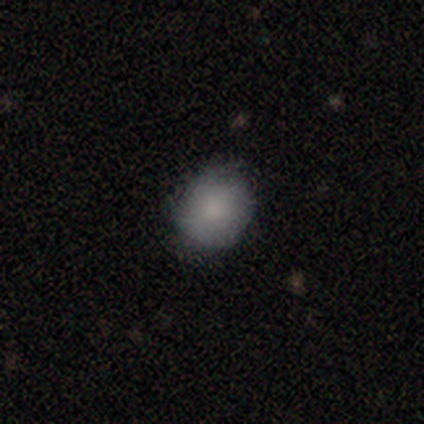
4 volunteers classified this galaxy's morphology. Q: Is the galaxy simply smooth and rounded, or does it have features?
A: smooth — 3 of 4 (75%).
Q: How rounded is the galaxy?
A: round — 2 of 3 (67%).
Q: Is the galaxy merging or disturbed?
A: none — 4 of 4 (100%).